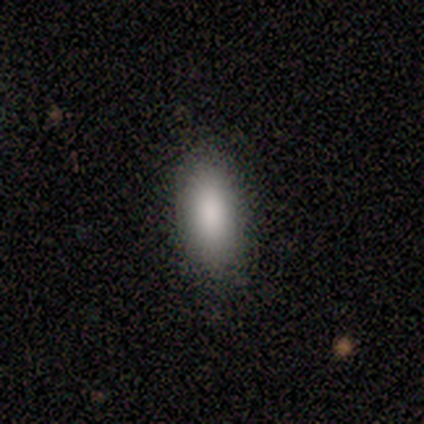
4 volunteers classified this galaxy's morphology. Smooth or featured?
  - smooth: 100% *
  - featured or disk: 0%
  - star or artifact: 0%
How rounded?
  - in between: 100% *
  - round: 0%
  - cigar-shaped: 0%
Merging?
  - none: 100% *
  - minor disturbance: 0%
  - major disturbance: 0%
  - merger: 0%